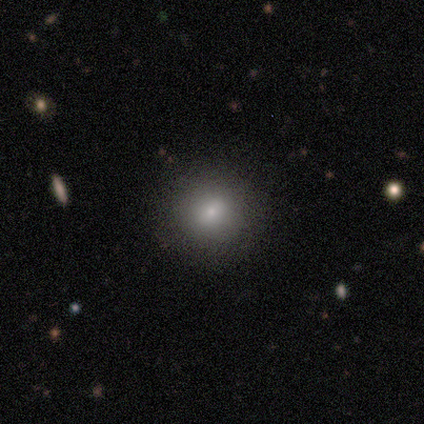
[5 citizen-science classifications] smooth 60%, featured or disk 20%, star or artifact 20%. Down the decision tree: how rounded — round (67%); merging — none (100%).